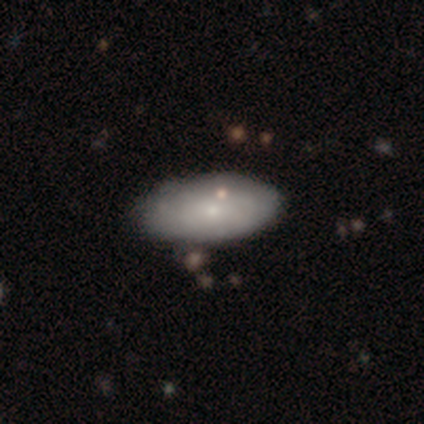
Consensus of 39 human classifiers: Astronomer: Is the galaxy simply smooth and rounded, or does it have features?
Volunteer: smooth — 64%.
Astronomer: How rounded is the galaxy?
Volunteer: in between — 96%.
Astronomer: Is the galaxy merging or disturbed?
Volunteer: none — 64%.